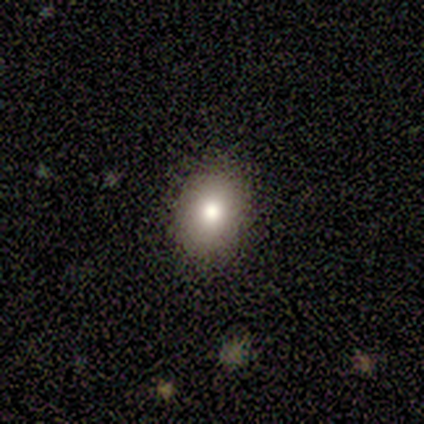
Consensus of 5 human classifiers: smooth_or_featured: smooth (p=0.60) [alt: featured or disk p=0.20]
how_rounded: in between (p=1.00)
merging: none (p=0.75) [alt: minor disturbance p=0.25]